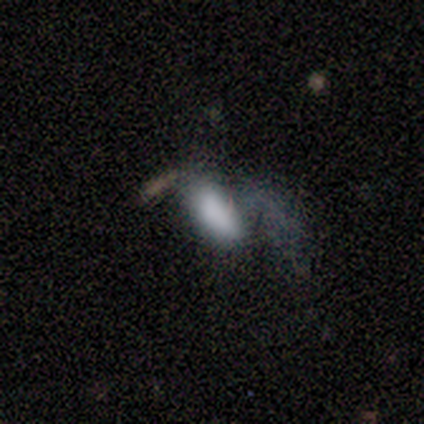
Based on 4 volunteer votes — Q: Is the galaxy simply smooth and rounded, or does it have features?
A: smooth — 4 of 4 (100%).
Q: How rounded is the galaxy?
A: in between — 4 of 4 (100%).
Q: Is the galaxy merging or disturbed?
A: major disturbance — 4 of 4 (100%).